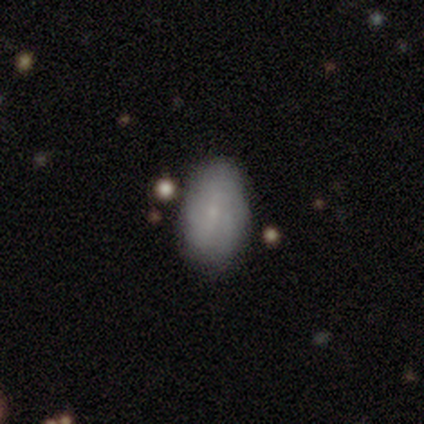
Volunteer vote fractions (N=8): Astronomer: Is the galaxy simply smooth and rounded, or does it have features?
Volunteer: featured or disk — 62%.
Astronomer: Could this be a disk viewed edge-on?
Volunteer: no — 100%.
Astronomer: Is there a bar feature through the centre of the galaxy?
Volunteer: no — 100%.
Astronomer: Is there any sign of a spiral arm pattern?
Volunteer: no — 60% (runner-up: yes, 40%).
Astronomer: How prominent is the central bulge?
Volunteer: small — 80%.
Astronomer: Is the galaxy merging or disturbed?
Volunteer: none — 100%.